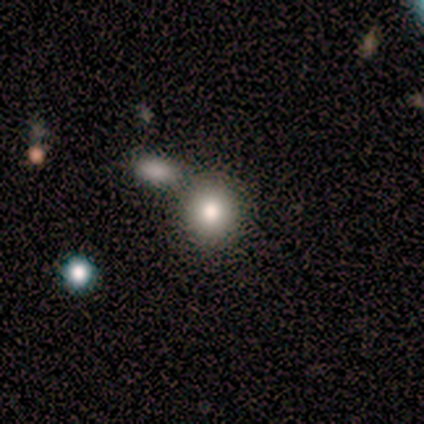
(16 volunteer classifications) Morphology: type=smooth (100%); roundness=round (88%); merging=none (81%).